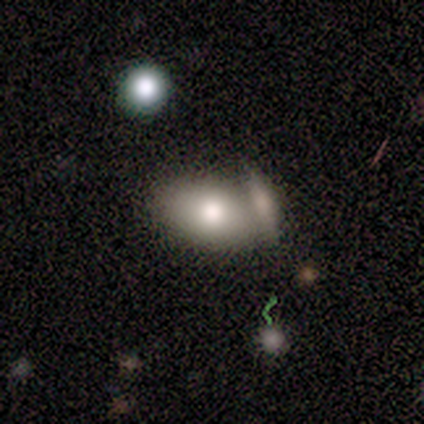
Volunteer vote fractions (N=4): smooth_or_featured: smooth (p=1.00)
how_rounded: in between (p=1.00)
merging: minor disturbance (p=0.50) [alt: none p=0.25]